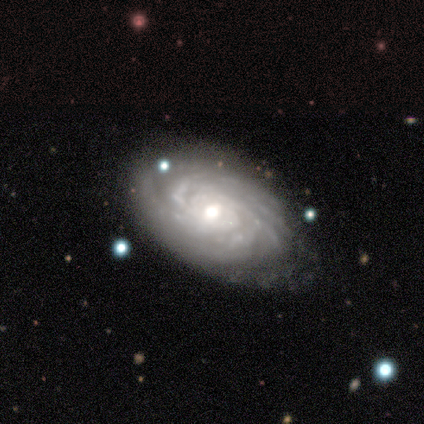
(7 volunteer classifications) This appears to be a featured or disk galaxy (71%) with no bar (100%), more than 4 (60%) tight (100%) spiral arms (100%) and a moderate central bulge (80%). Merging: none (67%).